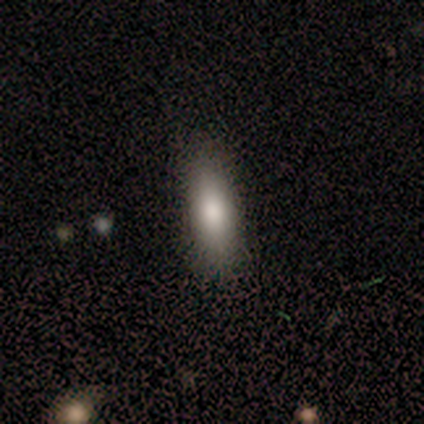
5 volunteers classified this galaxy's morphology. Smooth or featured? smooth (80%)
How rounded? in between (50%, tied with cigar-shaped)
Merging? none (75%)